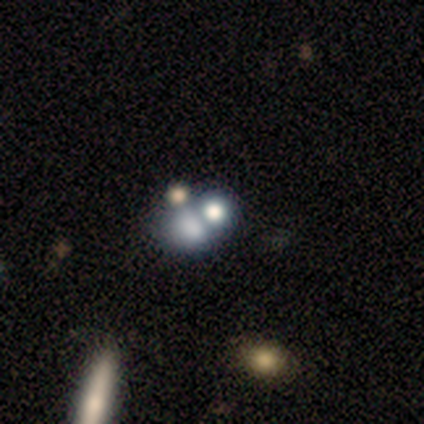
Volunteers were most divided on "merging" (2-way tie): none: 50%, merger: 50%, minor disturbance: 0%, major disturbance: 0%. More confident: how rounded — round (67%); smooth or featured — smooth (60%).